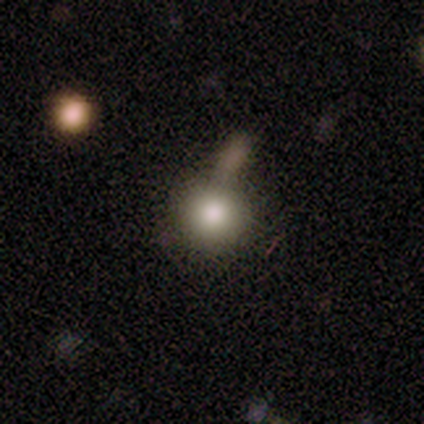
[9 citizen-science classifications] Volunteers were most divided on "merging": none: 56%, merger: 22%, minor disturbance: 11%, major disturbance: 11%. More confident: smooth or featured — smooth (100%); how rounded — round (100%).